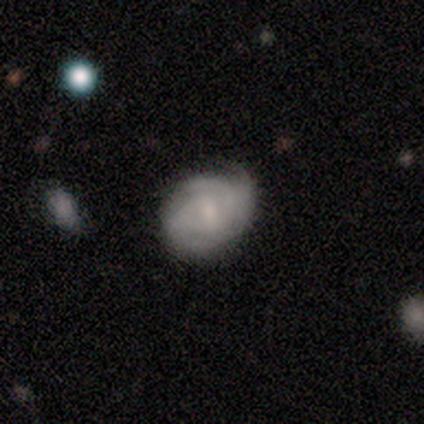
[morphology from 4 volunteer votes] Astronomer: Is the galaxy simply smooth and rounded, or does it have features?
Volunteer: featured or disk — 100%.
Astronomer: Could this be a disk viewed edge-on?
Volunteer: no — 100%.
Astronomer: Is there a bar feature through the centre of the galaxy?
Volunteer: strong — 50%, tied with no at 50%.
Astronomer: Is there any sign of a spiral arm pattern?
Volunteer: yes — 100%.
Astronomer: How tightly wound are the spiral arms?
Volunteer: tight — 100%.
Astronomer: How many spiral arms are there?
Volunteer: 3 — 50%, tied with can't tell at 50%.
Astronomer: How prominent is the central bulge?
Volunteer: small — 75%.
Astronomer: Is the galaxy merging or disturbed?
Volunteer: none — 75%.